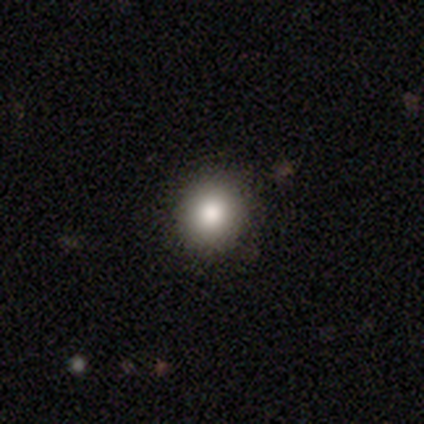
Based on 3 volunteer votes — Smooth or featured? 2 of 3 (67%) said smooth. How rounded? 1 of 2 (50%, tied with in between) said round. Merging? 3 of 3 (100%) said none.